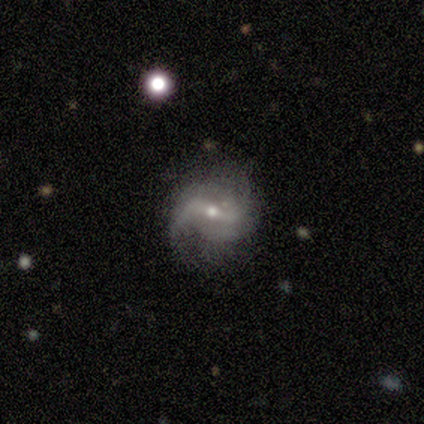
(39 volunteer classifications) Smooth or featured? 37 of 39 (95%) said featured or disk. Edge-on disk? 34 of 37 (92%) said no. Bar? 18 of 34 (53%) said strong. Spiral arms? 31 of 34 (91%) said yes. Spiral winding? 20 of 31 (65%) said loose. Spiral arm count? 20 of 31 (65%) said 2. Bulge size? 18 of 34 (53%) said small. Merging? 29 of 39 (74%) said none.